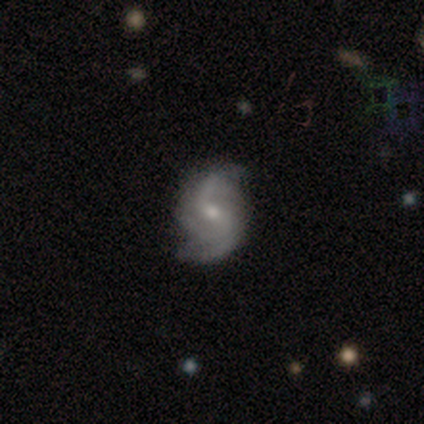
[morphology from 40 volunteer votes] Q: Smooth or featured?
A: featured or disk (100%)
Q: Edge-on disk?
A: no (100%)
Q: Bar?
A: no (50%); runner-up: weak (42%)
Q: Spiral arms?
A: yes (95%); runner-up: no (5%)
Q: Spiral winding?
A: loose (55%); runner-up: medium (37%)
Q: Spiral arm count?
A: 2 (76%); runner-up: 3 (11%)
Q: Bulge size?
A: small (70%); runner-up: moderate (25%)
Q: Merging?
A: none (75%); runner-up: minor disturbance (20%)